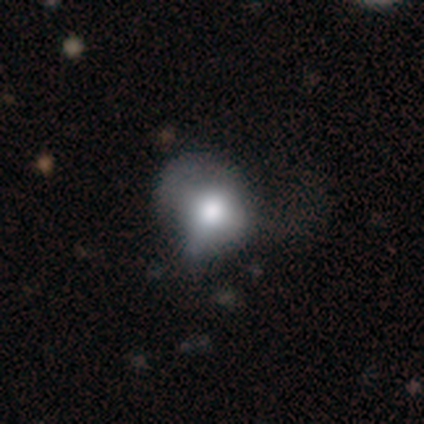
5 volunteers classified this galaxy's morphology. This is clearly a smooth galaxy (100%). How rounded: clearly round (80%). Merging: likely none (60%).